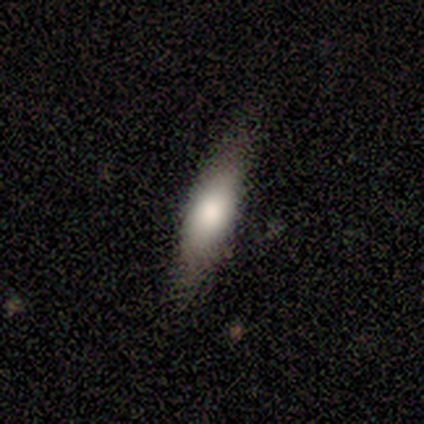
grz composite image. It shows a smooth galaxy with no disk features (75%) that is in between round and cigar-shaped (67%). Merging: none (71%).